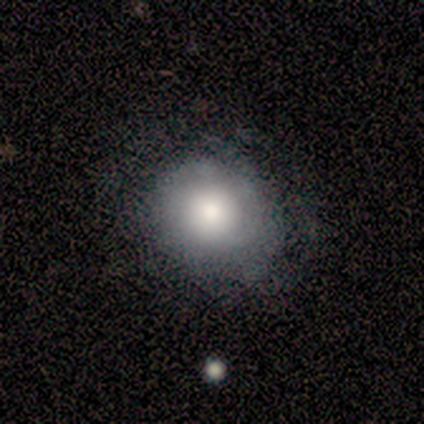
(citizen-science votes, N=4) Smooth or featured?
  - smooth: 100% *
  - featured or disk: 0%
  - star or artifact: 0%
How rounded?
  - round: 100% *
  - in between: 0%
  - cigar-shaped: 0%
Merging?
  - none: 50% * (tied)
  - major disturbance: 50% * (tied)
  - minor disturbance: 0%
  - merger: 0%